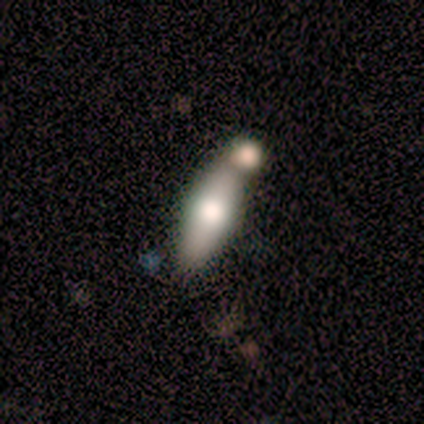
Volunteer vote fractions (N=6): A smooth galaxy with no disk features (83%) that is cigar-shaped (80%).

Vote fractions:
- Smooth or featured? smooth: 83% / featured or disk: 17% / star or artifact: 0%
- How rounded? cigar-shaped: 80% / in between: 20% / round: 0%
- Merging? minor disturbance: 33% (tied) / merger: 33% (tied) / none: 17% / major disturbance: 17%